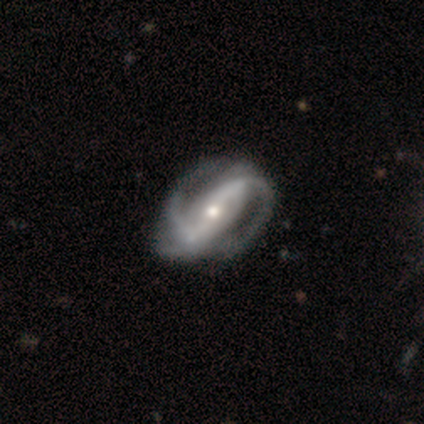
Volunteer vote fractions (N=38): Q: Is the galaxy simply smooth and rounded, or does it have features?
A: featured or disk — 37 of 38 (97%).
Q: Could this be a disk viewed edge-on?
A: no — 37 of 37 (100%).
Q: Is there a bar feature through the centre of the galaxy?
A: strong — 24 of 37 (65%).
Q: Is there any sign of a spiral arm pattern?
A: yes — 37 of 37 (100%).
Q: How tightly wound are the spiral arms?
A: medium — 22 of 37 (59%).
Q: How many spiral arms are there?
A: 2 — 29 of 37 (78%).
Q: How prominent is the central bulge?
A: moderate — 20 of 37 (54%).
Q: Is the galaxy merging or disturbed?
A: none — 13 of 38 (34%).